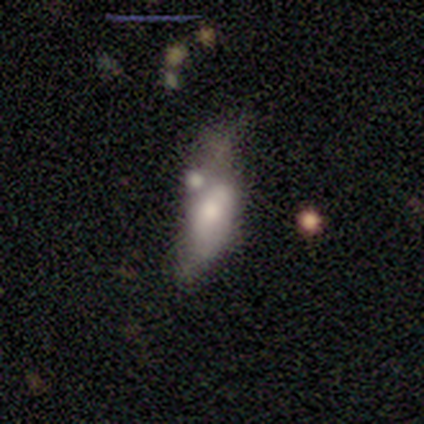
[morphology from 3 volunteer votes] This is likely a featured or disk galaxy (67%). It is clearly not viewed edge-on (100%). Bar: possibly weak (50%, tied with no). Spiral arm pattern: clearly no (100%). Central bulge: possibly moderate (50%, tied with small). Merging: marginally none (33%, tied with major disturbance and merger).